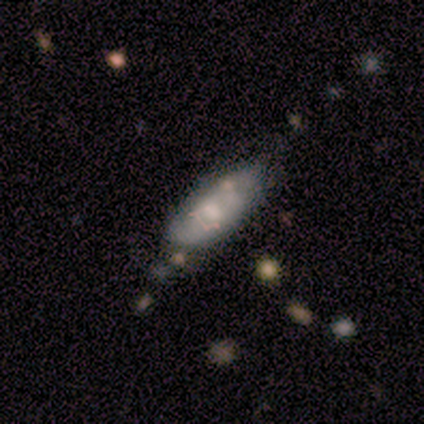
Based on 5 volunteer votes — Smooth or featured?
  - smooth: 60% *
  - featured or disk: 20%
  - star or artifact: 20%
How rounded?
  - in between: 100% *
  - round: 0%
  - cigar-shaped: 0%
Merging?
  - minor disturbance: 50% *
  - none: 25%
  - merger: 25%
  - major disturbance: 0%